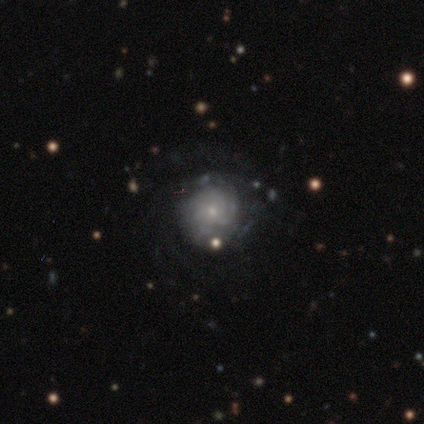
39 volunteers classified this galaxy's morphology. Smooth or featured: featured or disk — 67% (smooth — 23%)
Edge-on disk: no — 100%
Bar: no — 100%
Spiral arms: yes — 69% (no — 31%)
Spiral winding: tight — 56% (medium — 22%)
Spiral arm count: can't tell — 56% (3 — 17%)
Bulge size: small — 77% (moderate — 15%)
Merging: none — 60% (minor disturbance — 17%)